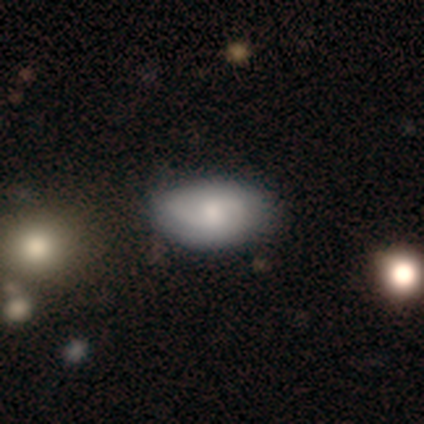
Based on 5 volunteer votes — Q: Smooth or featured?
A: featured or disk (60%); runner-up: smooth (40%)
Q: Edge-on disk?
A: no (67%); runner-up: yes (33%)
Q: Bar?
A: weak (50%); tied with: no (50%)
Q: Spiral arms?
A: yes (100%)
Q: Spiral winding?
A: medium (50%); tied with: loose (50%)
Q: Spiral arm count?
A: 2 (100%)
Q: Bulge size?
A: small (100%)
Q: Merging?
A: none (100%)